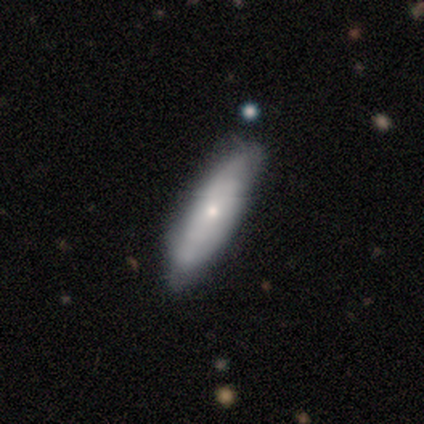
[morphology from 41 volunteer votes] This is possibly a featured or disk galaxy (51%). It is clearly not viewed edge-on (95%). Bar: likely no (75%). Spiral arm pattern: likely yes (60%). Spiral arm count: possibly 2 (50%). Spiral winding: possibly tight (58%). Central bulge: likely small (70%). Merging: likely none (71%).